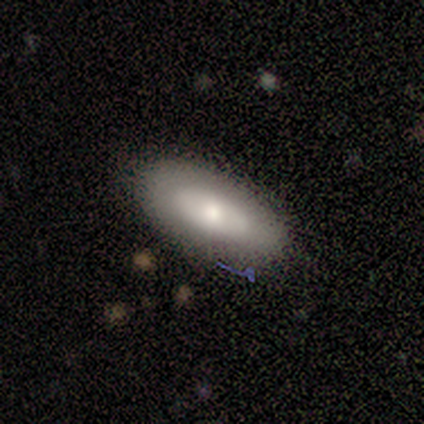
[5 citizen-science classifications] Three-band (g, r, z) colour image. It shows a smooth galaxy with no disk features (60%) that is in between round and cigar-shaped (100%). Merging: none (80%).